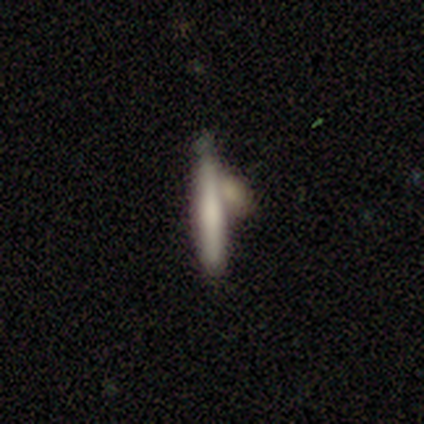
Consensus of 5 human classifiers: Volunteers were most divided on "smooth or featured": smooth: 60%, featured or disk: 40%, star or artifact: 0%. More confident: how rounded — cigar-shaped (100%); merging — none (80%).